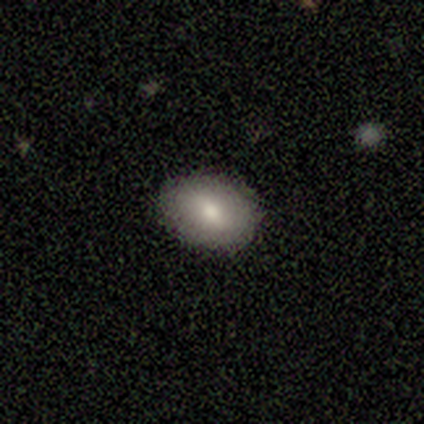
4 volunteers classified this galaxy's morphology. Volunteers were most divided on "how rounded" (2-way tie): round: 50%, in between: 50%, cigar-shaped: 0%; "merging" (2-way tie): none: 50%, minor disturbance: 50%, major disturbance: 0%, merger: 0%. More confident: smooth or featured — smooth (100%).